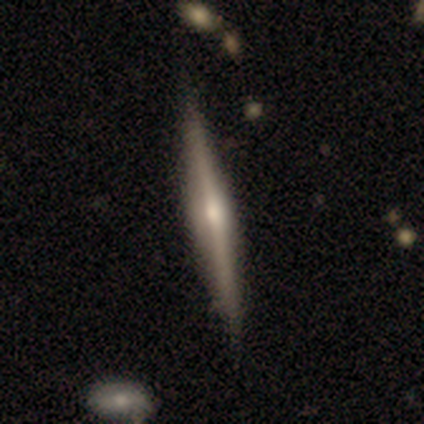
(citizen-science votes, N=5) Smooth or featured? 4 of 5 (80%) said featured or disk. Edge-on disk? 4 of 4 (100%) said yes. Edge-on bulge? 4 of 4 (100%) said rounded. Merging? 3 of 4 (75%) said none.